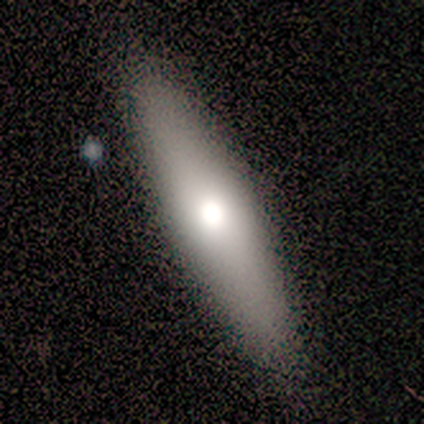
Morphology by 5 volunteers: Smooth or featured: smooth — 60% (featured or disk — 40%)
How rounded: cigar-shaped — 67% (in between — 33%)
Merging: none — 100%